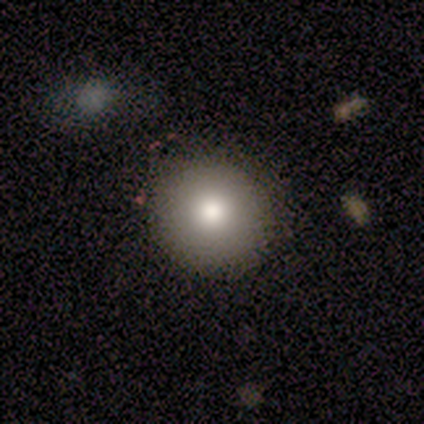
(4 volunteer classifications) A smooth galaxy with no disk features (100%) that is round (100%). Merging: none (100%).